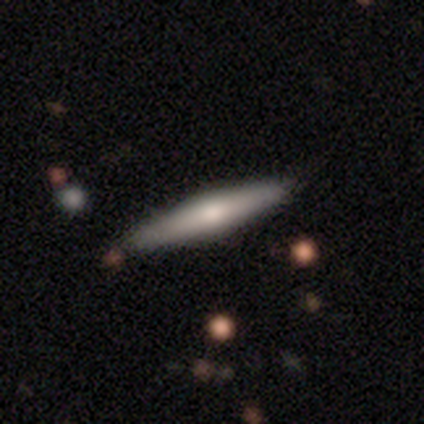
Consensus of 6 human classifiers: This is clearly a smooth galaxy (83%). How rounded: clearly cigar-shaped (100%). Merging: clearly none (83%).